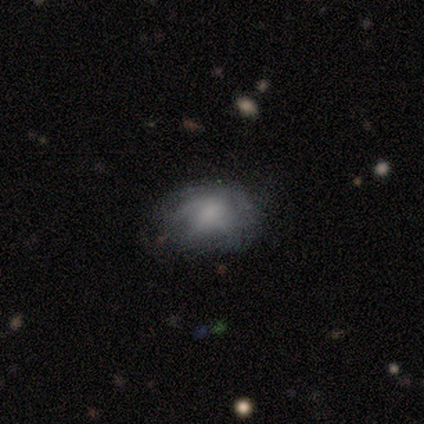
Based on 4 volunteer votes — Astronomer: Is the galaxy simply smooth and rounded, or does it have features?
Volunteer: featured or disk — 50%.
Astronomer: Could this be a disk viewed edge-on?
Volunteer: no — 100%.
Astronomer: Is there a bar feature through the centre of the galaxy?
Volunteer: no — 100%.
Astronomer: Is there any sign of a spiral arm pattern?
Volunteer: no — 100%.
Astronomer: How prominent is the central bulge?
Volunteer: dominant — 50%, tied with none at 50%.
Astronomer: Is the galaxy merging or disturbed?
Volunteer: minor disturbance — 67%.